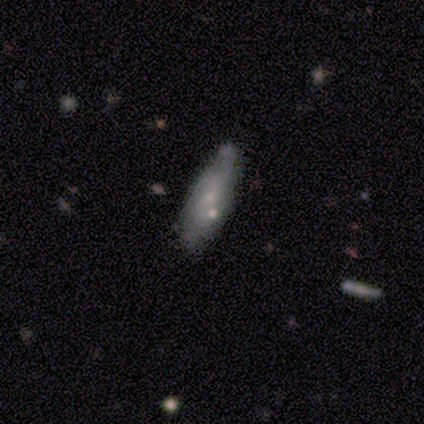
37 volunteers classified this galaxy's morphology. This is possibly a smooth galaxy (57%). How rounded: possibly in between (57%). Merging: possibly none (51%).